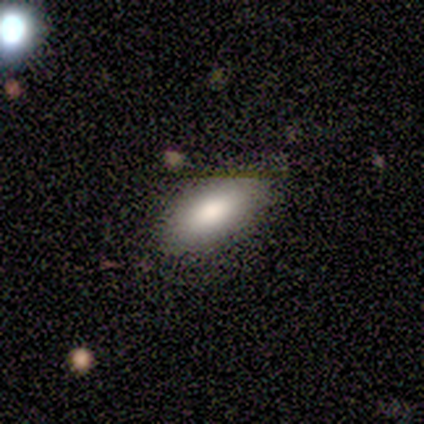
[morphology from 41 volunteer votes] A smooth galaxy with no disk features (80%) that is in between round and cigar-shaped (88%). Merging: none (89%).